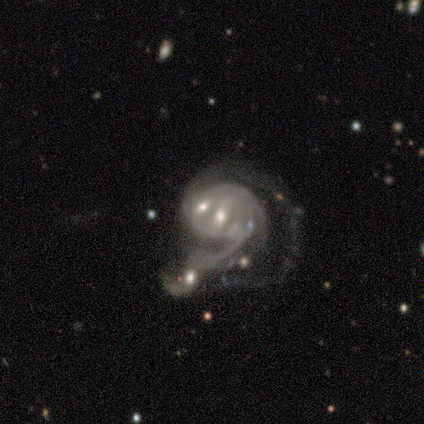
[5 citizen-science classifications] Smooth or featured? featured or disk (100%)
Edge-on disk? no (100%)
Bar? weak (80%)
Spiral arms? yes (80%)
Spiral winding? tight (75%)
Spiral arm count? can't tell (75%)
Bulge size? small (80%)
Merging? merger (60%)